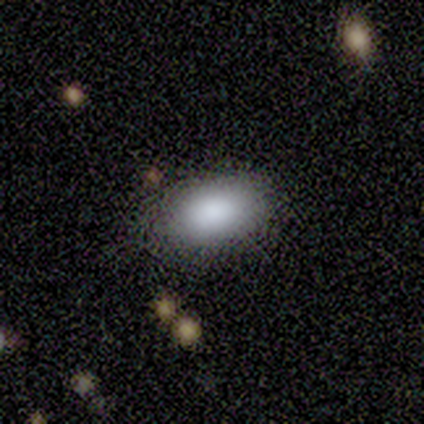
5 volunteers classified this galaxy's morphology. Smooth or featured?
  - smooth: 100% *
  - featured or disk: 0%
  - star or artifact: 0%
How rounded?
  - in between: 100% *
  - round: 0%
  - cigar-shaped: 0%
Merging?
  - none: 100% *
  - minor disturbance: 0%
  - major disturbance: 0%
  - merger: 0%